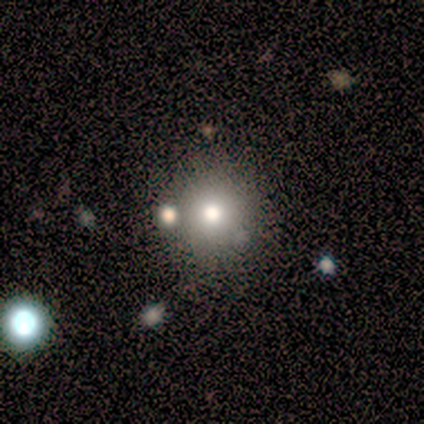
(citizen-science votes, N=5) Overall: smooth (60%; featured or disk 40%). How rounded: round (100%). Merging: none (100%).